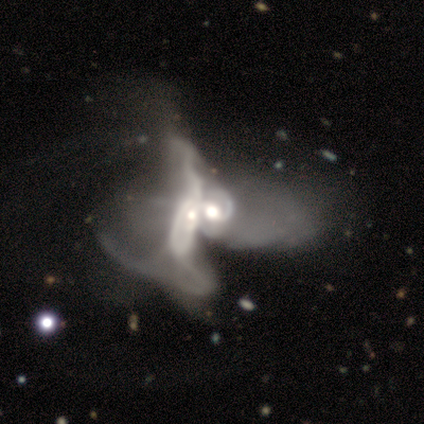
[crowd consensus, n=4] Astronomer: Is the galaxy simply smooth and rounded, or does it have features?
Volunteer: featured or disk — 75%.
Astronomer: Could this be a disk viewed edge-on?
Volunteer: no — 100%.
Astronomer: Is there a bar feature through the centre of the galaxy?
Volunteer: no — 100%.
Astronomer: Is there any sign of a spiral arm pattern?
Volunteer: no — 67%.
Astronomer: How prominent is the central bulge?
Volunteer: moderate — 100%.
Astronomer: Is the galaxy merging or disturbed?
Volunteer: merger — 100%.